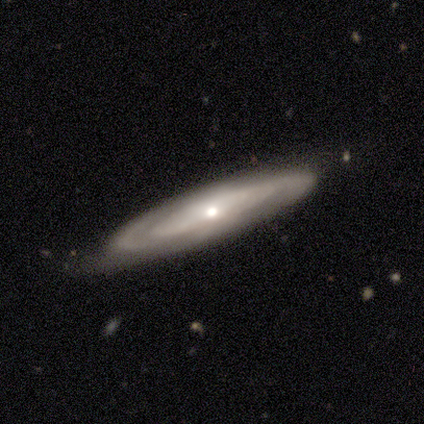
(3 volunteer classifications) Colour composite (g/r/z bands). It shows a featured or disk galaxy (67%) viewed edge-on (100%) with a rounded central bulge (100%). Merging: none (67%).